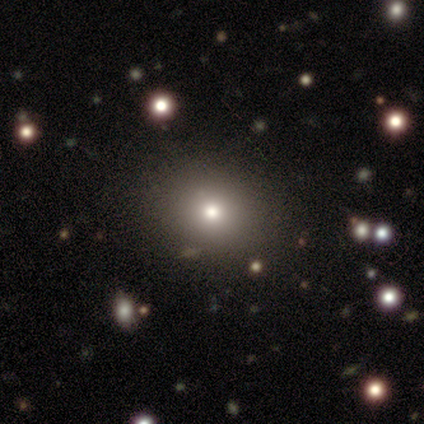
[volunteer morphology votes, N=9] smooth_or_featured: smooth (p=0.89) [alt: star or artifact p=0.11]
how_rounded: round (p=0.88) [alt: in between p=0.12]
merging: none (p=1.00)